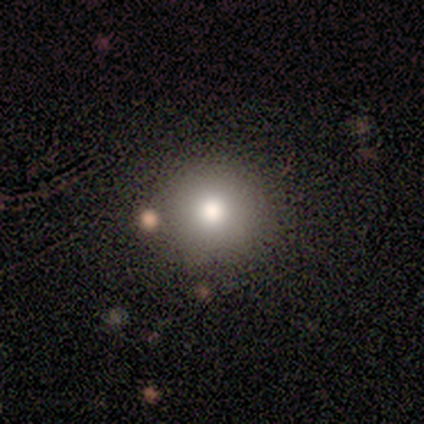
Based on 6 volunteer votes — smooth 50%, star or artifact 33%, featured or disk 17%. Down the decision tree: how rounded — round (100%); merging — none (50%, tied with major disturbance).